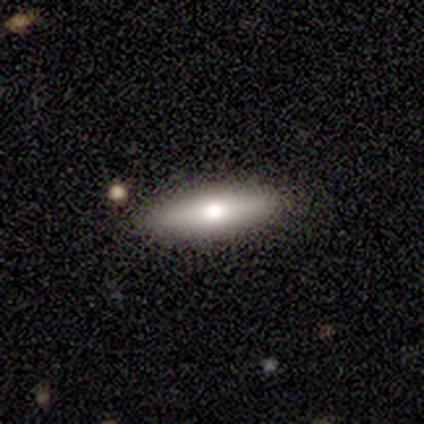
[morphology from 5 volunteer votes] smooth-or-featured: featured or disk: 80% | smooth: 20% | star or artifact: 0%
  disk-edge-on: yes: 100% | no: 0%
    edge-on-bulge: rounded: 100% | boxy: 0% | none: 0%
  merging: none: 100% | minor disturbance: 0% | major disturbance: 0% | merger: 0%